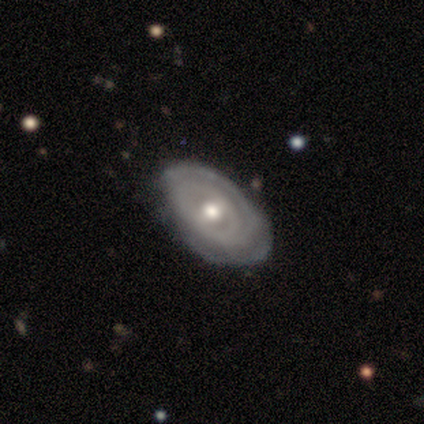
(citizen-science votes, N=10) Smooth or featured? 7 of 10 (70%) said featured or disk. Edge-on disk? 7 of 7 (100%) said no. Bar? 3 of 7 (43%) said no. Spiral arms? 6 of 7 (86%) said yes. Spiral winding? 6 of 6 (100%) said tight. Spiral arm count? 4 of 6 (67%) said 2. Bulge size? 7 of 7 (100%) said moderate. Merging? 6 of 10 (60%) said none.